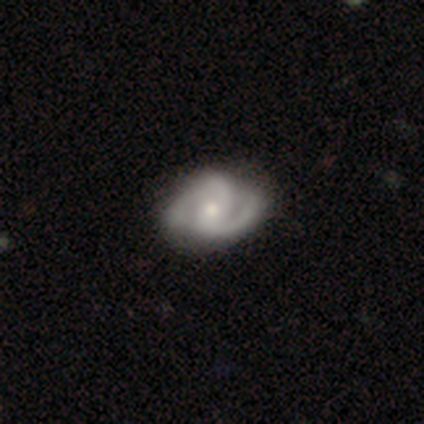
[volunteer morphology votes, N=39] featured or disk 87%, smooth 10%, star or artifact 3%. Down the decision tree: edge-on disk — no (100%); bar — weak (44%); spiral arms — yes (94%); spiral arm count — 2 (62%); spiral winding — medium (56%); bulge size — small (62%); merging — none (79%).